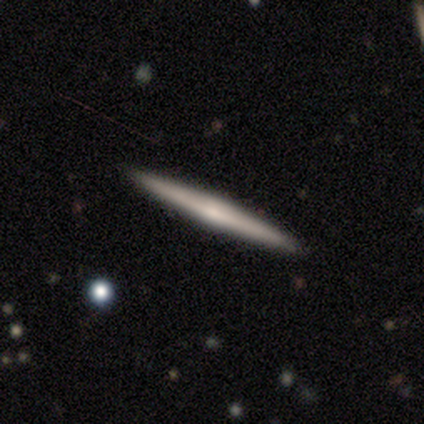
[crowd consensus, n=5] smooth 60%, featured or disk 40%, star or artifact 0%. Down the decision tree: how rounded — cigar-shaped (100%); merging — none (100%).